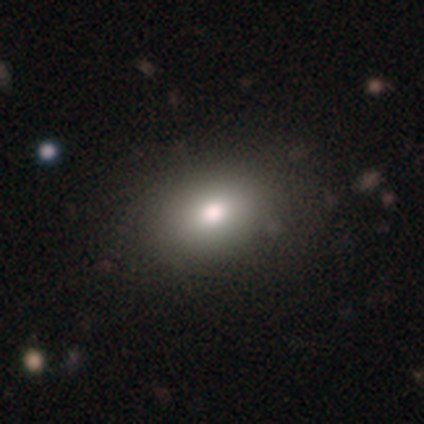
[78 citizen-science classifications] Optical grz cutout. It shows a smooth galaxy with no disk features (85%) that is in between round and cigar-shaped (76%). Merging: none (39%).